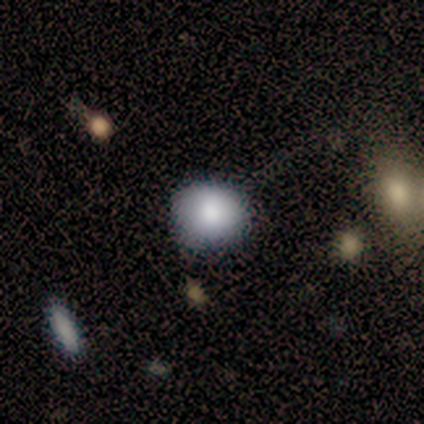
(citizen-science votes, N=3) Smooth or featured?
  - smooth: 67% *
  - featured or disk: 33%
  - star or artifact: 0%
How rounded?
  - round: 100% *
  - in between: 0%
  - cigar-shaped: 0%
Merging?
  - none: 100% *
  - minor disturbance: 0%
  - major disturbance: 0%
  - merger: 0%